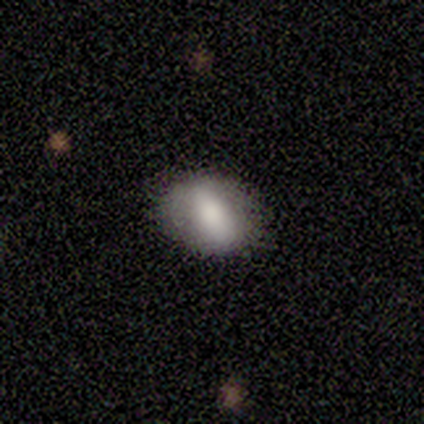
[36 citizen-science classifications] Overall: smooth (69%). How rounded: in between (76%). Merging: none (76%).